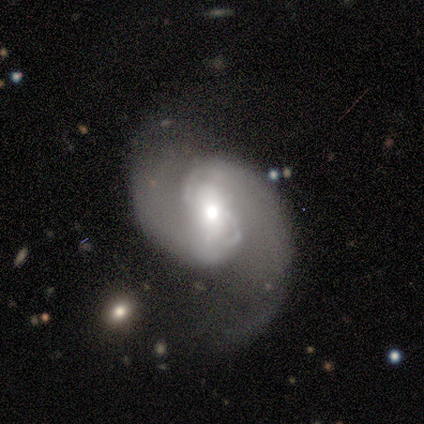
Volunteers were most divided on "bar": no: 38%, weak: 35%, strong: 28%. Remaining: edge-on disk — no (99%); spiral arms — yes (96%); spiral arm count — 2 (94%); smooth or featured — featured or disk (88%); spiral winding — medium (55%); bulge size — moderate (49%); merging — none (47%).